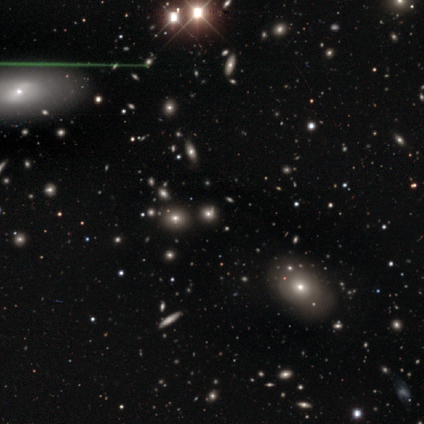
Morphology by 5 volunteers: Q: Smooth or featured?
A: smooth (60%); runner-up: star or artifact (40%)
Q: How rounded?
A: round (33%); tied with: in between (33%); cigar-shaped (33%)
Q: Merging?
A: none (100%)